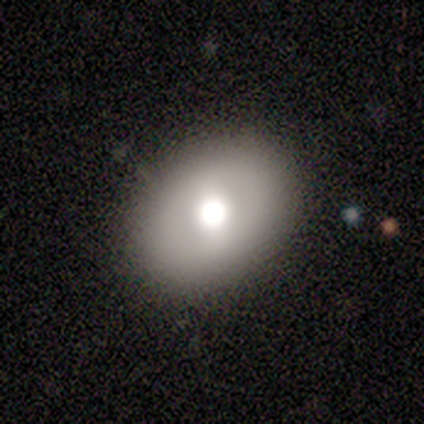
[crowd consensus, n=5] smooth-or-featured: smooth: 100% | featured or disk: 0% | star or artifact: 0%
  how-rounded: in between: 80% | round: 20% | cigar-shaped: 0%
  merging: none: 100% | minor disturbance: 0% | major disturbance: 0% | merger: 0%